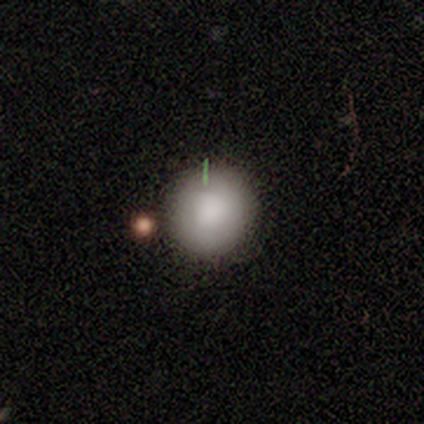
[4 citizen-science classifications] Smooth or featured? smooth (50%)
How rounded? round (100%)
Merging? none (100%)